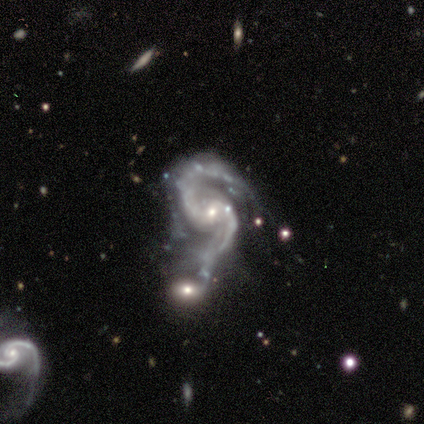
featured or disk 100%, smooth 0%, star or artifact 0%. Down the decision tree: edge-on disk — no (100%); bar — weak (60%); spiral arms — yes (100%); spiral arm count — 2 (100%); spiral winding — medium (60%); bulge size — small (80%); merging — none (40%).